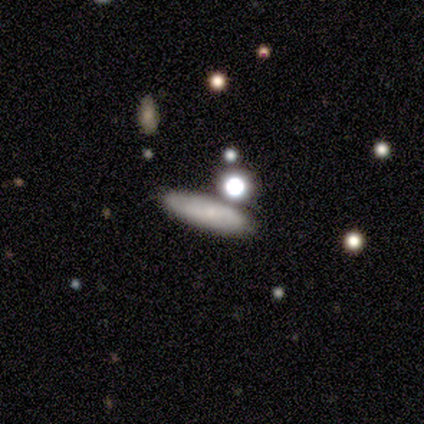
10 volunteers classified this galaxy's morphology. This appears to be a smooth galaxy with no disk features (70%) that is cigar-shaped (71%). Merging: none (89%).